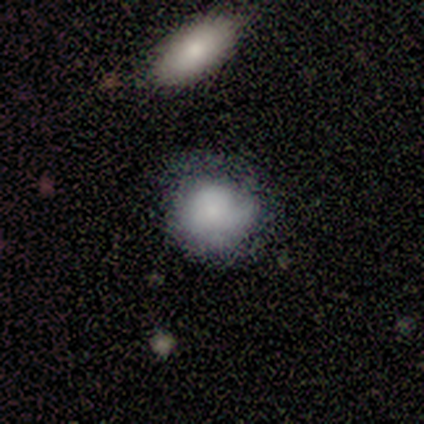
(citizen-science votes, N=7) This is likely a smooth galaxy (71%). How rounded: likely round (60%). Merging: possibly minor disturbance (57%).